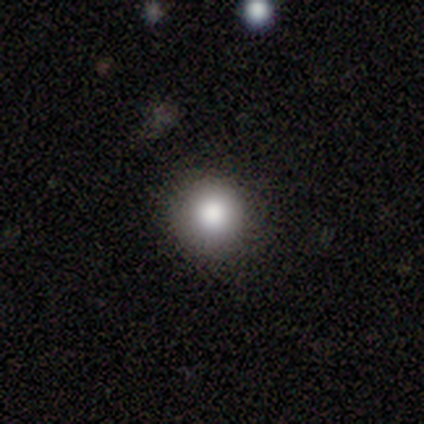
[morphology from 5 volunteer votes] A smooth galaxy with no disk features (100%) that is round (100%). Merging: none (100%).